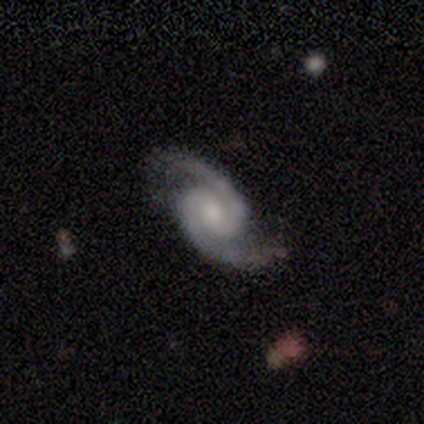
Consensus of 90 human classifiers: Smooth or featured? 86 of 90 (96%) said featured or disk. Edge-on disk? 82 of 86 (95%) said no. Bar? 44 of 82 (54%) said no. Spiral arms? 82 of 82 (100%) said yes. Spiral winding? 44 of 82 (54%) said medium. Spiral arm count? 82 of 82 (100%) said 2. Bulge size? 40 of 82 (49%) said moderate. Merging? 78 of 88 (89%) said none.